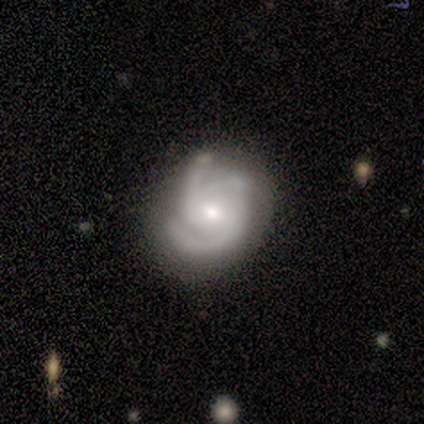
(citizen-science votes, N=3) smooth-or-featured: featured or disk: 100% | smooth: 0% | star or artifact: 0%
  disk-edge-on: no: 100% | yes: 0%
    bar: weak: 67% | no: 33% | strong: 0%
    has-spiral-arms: yes: 100% | no: 0%
      spiral-winding: medium: 100% | tight: 0% | loose: 0%
      spiral-arm-count: 2: 67% | 3: 33% | 1: 0% | 4: 0% | more than 4: 0% | can't tell: 0%
    bulge-size: moderate: 67% | small: 33% | dominant: 0% | large: 0% | none: 0%
  merging: none: 100% | minor disturbance: 0% | major disturbance: 0% | merger: 0%